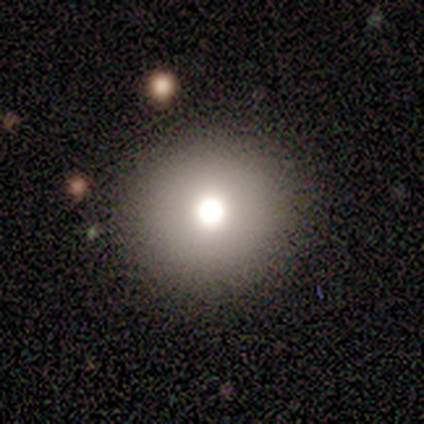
Consensus on every question: smooth or featured — smooth (100%); how rounded — round (100%); merging — none (100%).